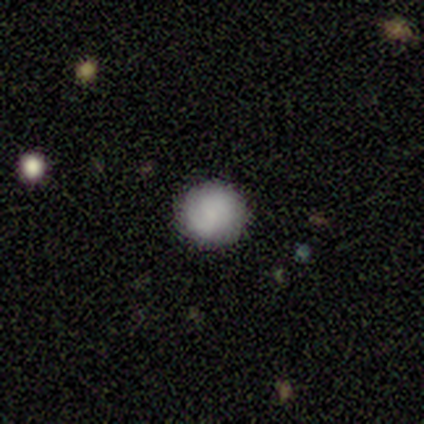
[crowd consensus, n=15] smooth_or_featured: smooth (p=0.87) [alt: featured or disk p=0.07]
how_rounded: round (p=0.92) [alt: in between p=0.08]
merging: none (p=0.71) [alt: minor disturbance p=0.14]